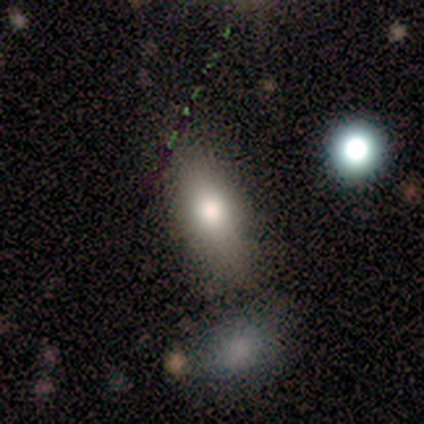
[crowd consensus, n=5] smooth_or_featured: smooth (p=1.00)
how_rounded: in between (p=1.00)
merging: none (p=0.60) [alt: minor disturbance p=0.40]